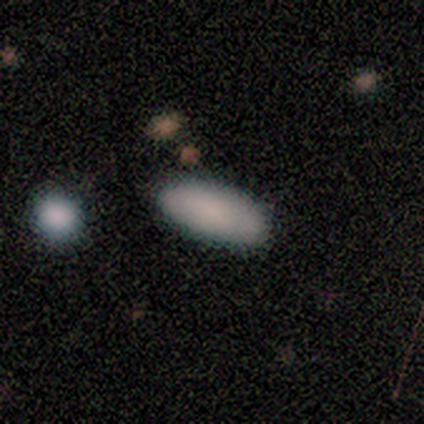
smooth_or_featured: smooth (p=1.00)
how_rounded: in between (p=1.00)
merging: none (p=1.00)